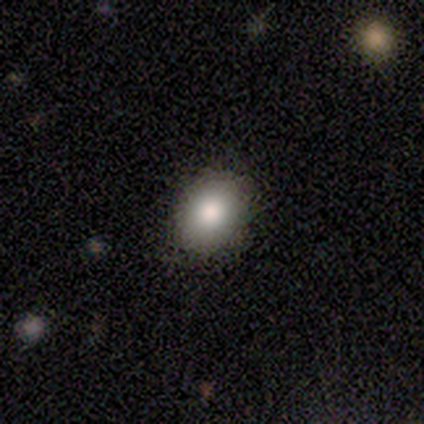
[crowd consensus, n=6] Overall: smooth (83%). How rounded: in between (100%). Merging: none (100%).